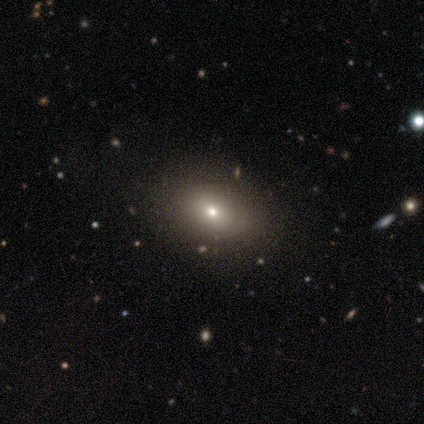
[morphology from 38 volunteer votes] This is likely a smooth galaxy (61%). How rounded: clearly in between (96%). Merging: clearly none (89%).